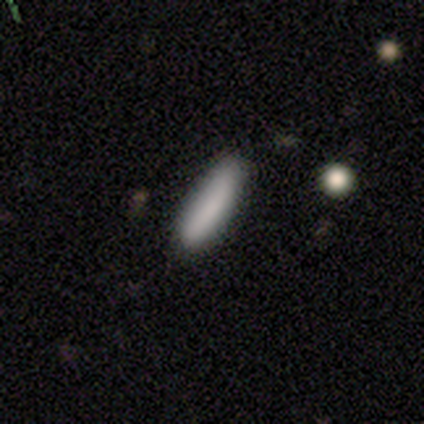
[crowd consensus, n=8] Smooth or featured? 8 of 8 (100%) said smooth. How rounded? 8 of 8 (100%) said cigar-shaped. Merging? 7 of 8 (88%) said none.